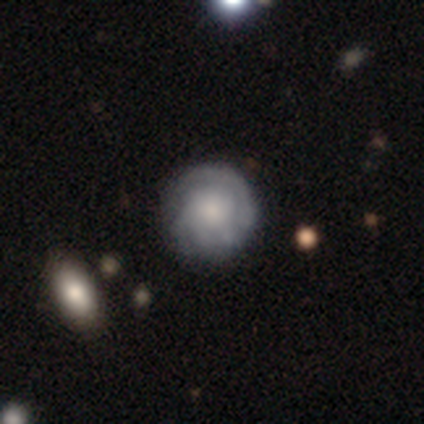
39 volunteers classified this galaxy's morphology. smooth_or_featured: featured or disk (p=0.72) [alt: smooth p=0.26]
disk_edge_on: no (p=1.00)
bar: no (p=0.89) [alt: weak p=0.11]
has_spiral_arms: yes (p=0.93) [alt: no p=0.07]
spiral_winding: tight (p=0.77) [alt: medium p=0.12]
spiral_arm_count: can't tell (p=0.50) [alt: 2 p=0.31]
bulge_size: moderate (p=0.36) [alt: large p=0.32]
merging: none (p=0.63) [alt: minor disturbance p=0.21]